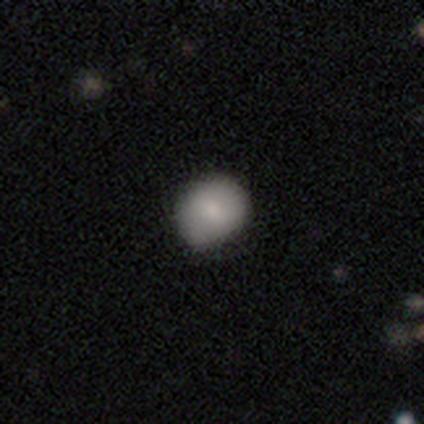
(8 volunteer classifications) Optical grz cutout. It shows a smooth galaxy with no disk features (75%) that is round (83%). Merging: none (57%).